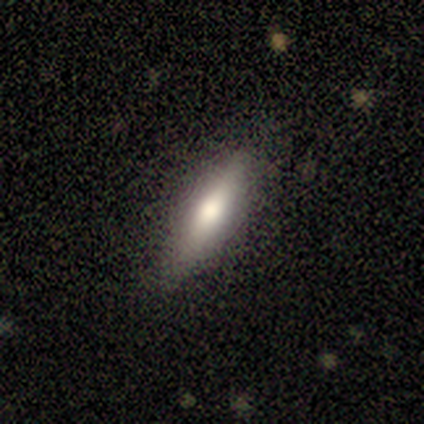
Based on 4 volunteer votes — Morphology: type=smooth (50%); roundness=in between (50%, tied with cigar-shaped); merging=none (67%).